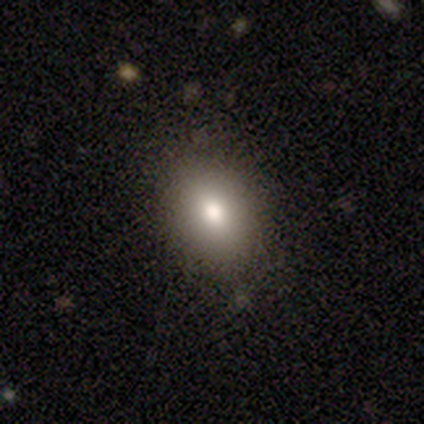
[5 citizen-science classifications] This is likely a smooth galaxy (60%). How rounded: clearly in between (100%). Merging: clearly none (80%).